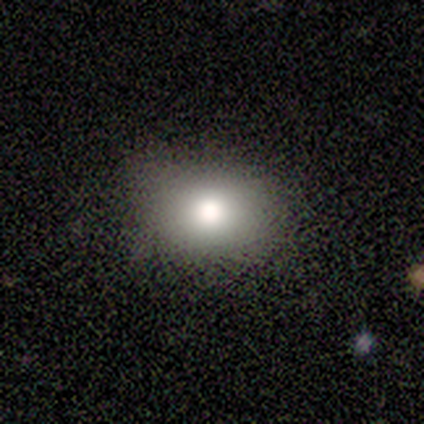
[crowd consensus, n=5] Volunteers were most divided on "how rounded": round: 67%, in between: 33%, cigar-shaped: 0%. More confident: merging — none (100%); smooth or featured — smooth (60%).